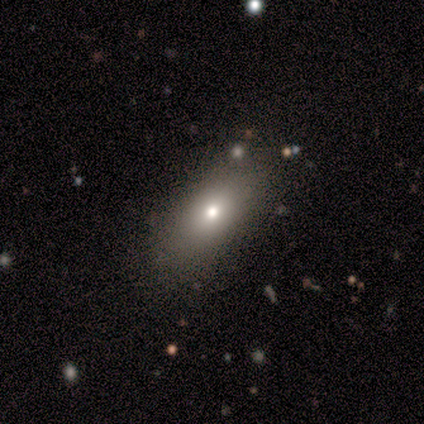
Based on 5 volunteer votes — Smooth or featured: smooth — 100%
How rounded: in between — 100%
Merging: none — 80% (minor disturbance — 20%)